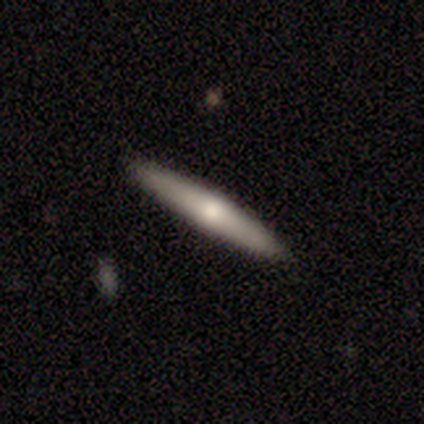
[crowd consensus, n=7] A smooth galaxy with no disk features (86%) that is cigar-shaped (100%).

Vote fractions:
- Smooth or featured? smooth: 86% / featured or disk: 14% / star or artifact: 0%
- How rounded? cigar-shaped: 100% / round: 0% / in between: 0%
- Merging? none: 86% / major disturbance: 14% / minor disturbance: 0% / merger: 0%